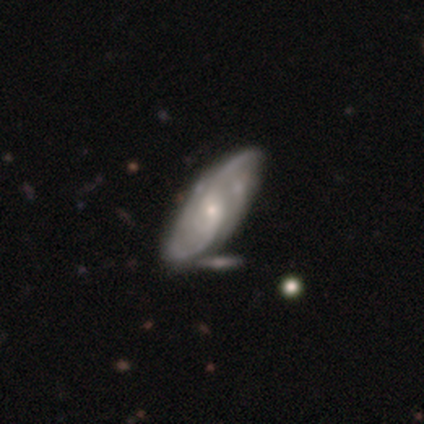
This appears to be a featured or disk galaxy (83%) with no bar (57%), 2 (56%) loose (40%) spiral arms (90%) and a small central bulge (70%). Merging: none (53%).